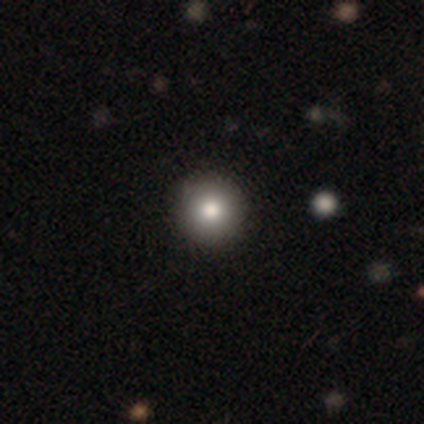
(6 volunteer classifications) Overall: smooth (83%). How rounded: round (80%). Merging: none (83%).